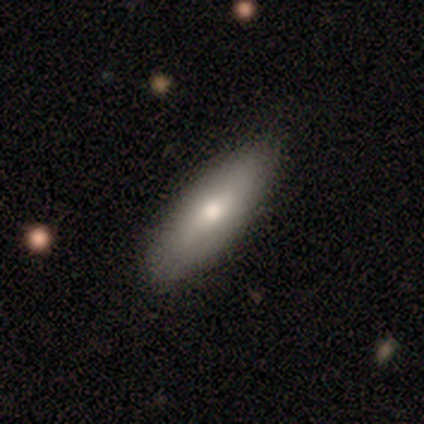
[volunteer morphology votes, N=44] smooth_or_featured: smooth (p=0.82) [alt: featured or disk p=0.16]
how_rounded: cigar-shaped (p=0.56) [alt: in between p=0.44]
merging: none (p=0.84) [alt: minor disturbance p=0.14]